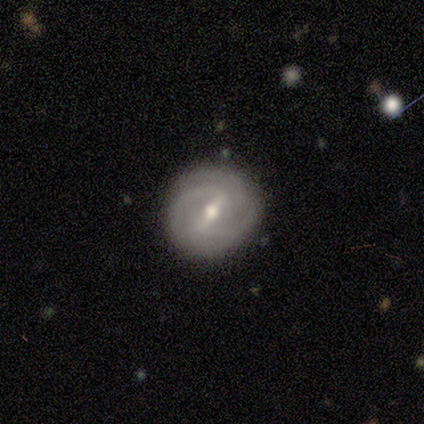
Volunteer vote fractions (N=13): smooth_or_featured: featured or disk (p=0.54) [alt: smooth p=0.38]
disk_edge_on: no (p=1.00)
bar: weak (p=0.57) [alt: strong p=0.29]
has_spiral_arms: yes (p=0.71) [alt: no p=0.29]
spiral_winding: tight (p=0.60) [alt: medium p=0.20]
spiral_arm_count: 2 (p=0.40) [tied with: can't tell p=0.40]
bulge_size: moderate (p=0.71) [alt: small p=0.29]
merging: none (p=0.92) [alt: minor disturbance p=0.08]